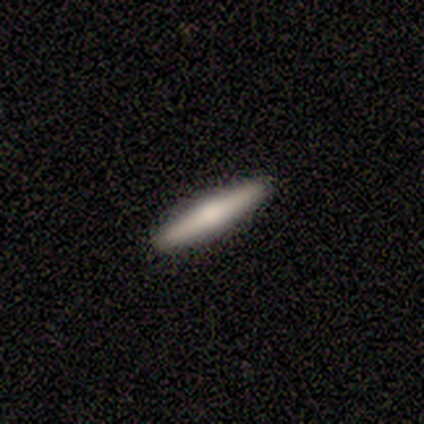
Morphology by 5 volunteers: smooth 40% (tied), featured or disk 40% (tied), star or artifact 20%. Down the decision tree: how rounded — cigar-shaped (100%); merging — none (100%).